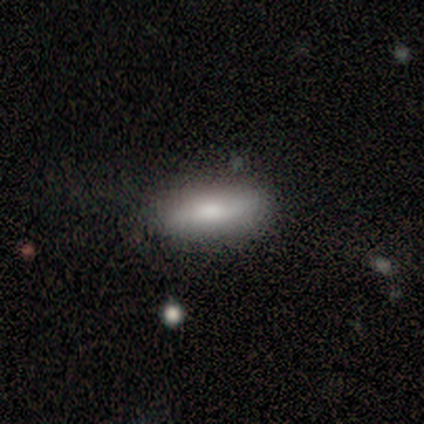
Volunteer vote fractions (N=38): smooth-or-featured: smooth: 71% | featured or disk: 21% | star or artifact: 8%
  how-rounded: in between: 67% | cigar-shaped: 33% | round: 0%
  merging: none: 80% | minor disturbance: 14% | major disturbance: 6% | merger: 0%